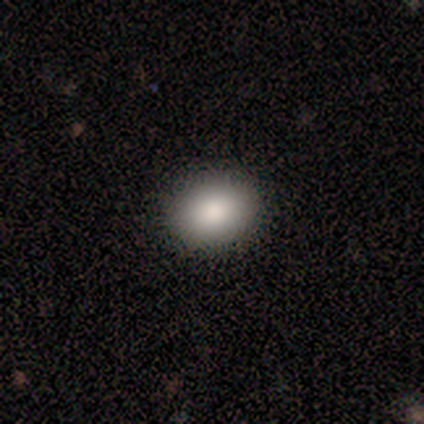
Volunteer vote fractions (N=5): Smooth or featured? smooth (80%)
How rounded? round (50%, tied with in between)
Merging? none (100%)